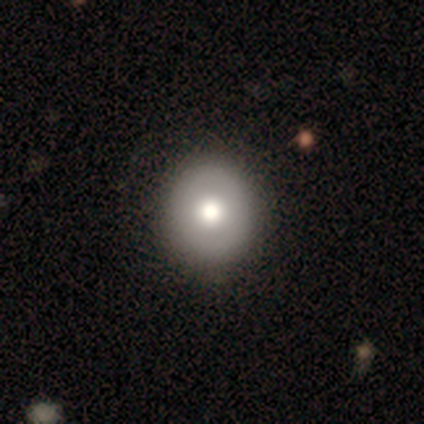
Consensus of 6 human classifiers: Smooth or featured: smooth — 50% (featured or disk — 33%)
How rounded: round — 100%
Merging: none — 100%